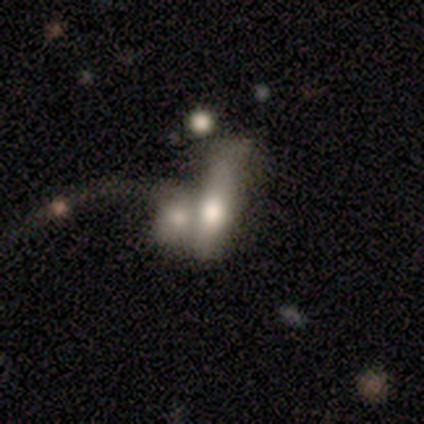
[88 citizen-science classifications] smooth 52%, featured or disk 40%, star or artifact 8%. Down the decision tree: how rounded — cigar-shaped (52%); merging — merger (79%).